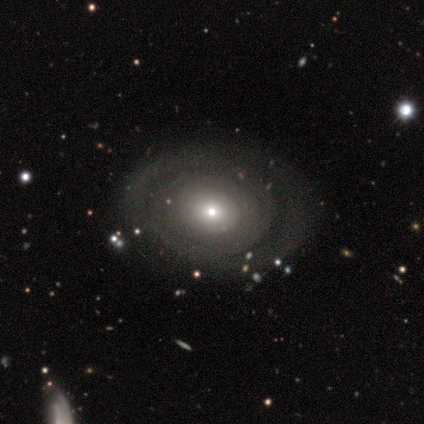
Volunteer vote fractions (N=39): smooth-or-featured: featured or disk: 56% | smooth: 36% | star or artifact: 8%
  disk-edge-on: no: 91% | yes: 9%
    bar: no: 85% | weak: 15% | strong: 0%
    has-spiral-arms: yes: 50% (tied) | no: 50% (tied)
      spiral-winding: tight: 50% | medium: 30% | loose: 20%
      spiral-arm-count: can't tell: 60% | 1: 20% | 2: 20% | 3: 0% | 4: 0% | more than 4: 0%
    bulge-size: small: 70% | moderate: 25% | none: 5% | dominant: 0% | large: 0%
  merging: none: 81% | minor disturbance: 8% | major disturbance: 8% | merger: 3%